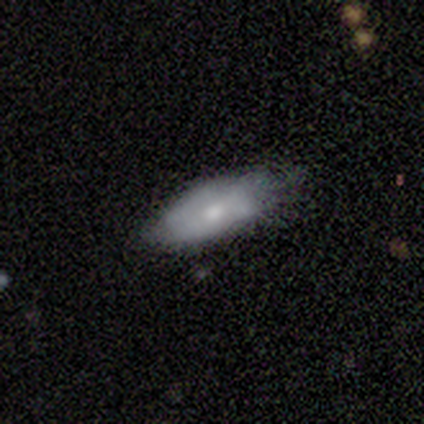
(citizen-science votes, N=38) Morphology: type=smooth (71%); roundness=in between (85%); merging=minor disturbance (44%).